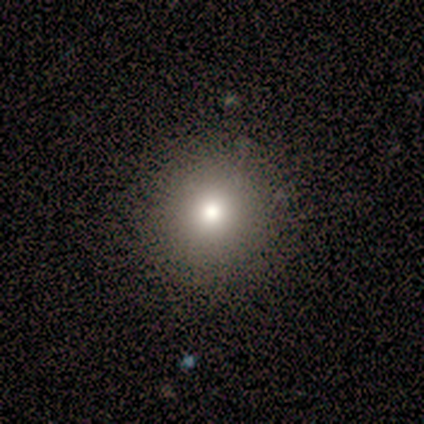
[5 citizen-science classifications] Q: Smooth or featured?
A: smooth (80%); runner-up: star or artifact (20%)
Q: How rounded?
A: round (100%)
Q: Merging?
A: none (100%)